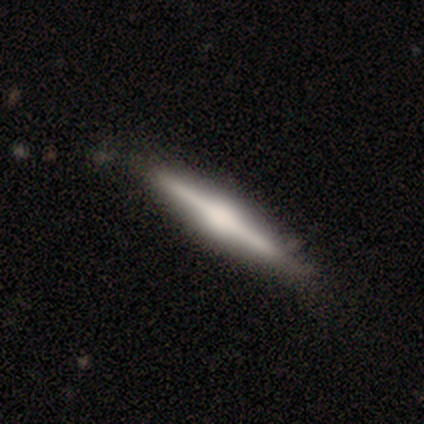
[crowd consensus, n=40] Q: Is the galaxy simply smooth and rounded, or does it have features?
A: featured or disk — 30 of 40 (75%).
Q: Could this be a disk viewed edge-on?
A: yes — 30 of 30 (100%).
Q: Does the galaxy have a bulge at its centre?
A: rounded — 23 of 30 (77%).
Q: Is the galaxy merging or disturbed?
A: none — 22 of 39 (56%).